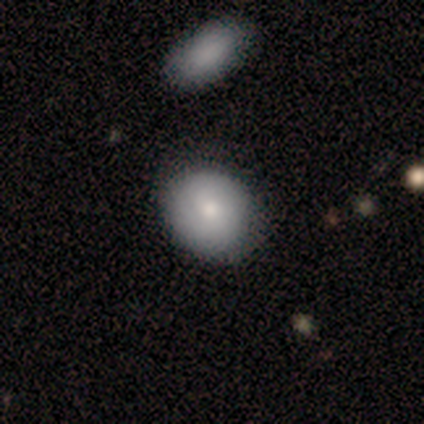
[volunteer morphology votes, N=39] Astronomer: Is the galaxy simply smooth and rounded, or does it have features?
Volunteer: smooth — 79%.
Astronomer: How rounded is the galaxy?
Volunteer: round — 58% (runner-up: in between, 42%).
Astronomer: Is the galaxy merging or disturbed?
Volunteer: none — 38% (runner-up: minor disturbance, 14%).